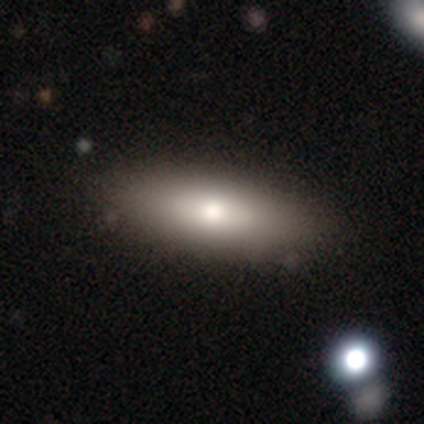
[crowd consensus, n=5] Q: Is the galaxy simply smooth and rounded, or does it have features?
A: smooth — 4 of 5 (80%).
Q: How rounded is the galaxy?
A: in between — 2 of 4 (50%, tied with cigar-shaped).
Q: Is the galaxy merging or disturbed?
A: none — 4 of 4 (100%).